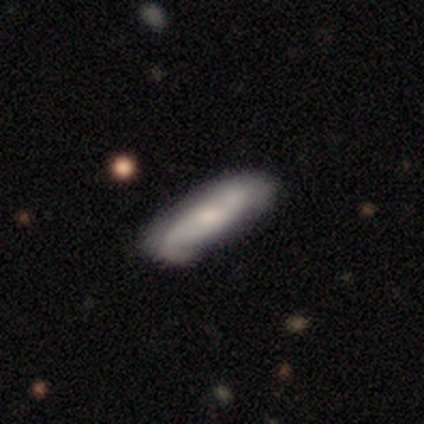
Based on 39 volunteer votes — Smooth or featured? featured or disk (56%)
Edge-on disk? no (77%)
Bar? weak (53%)
Spiral arms? yes (82%)
Spiral winding? loose (43%)
Spiral arm count? 2 (64%)
Bulge size? moderate (41%)
Merging? none (62%)